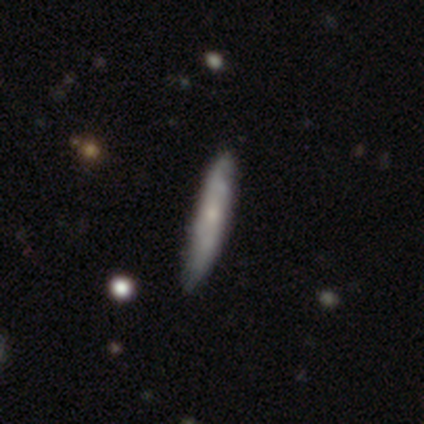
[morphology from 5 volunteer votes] This is clearly a smooth galaxy (80%). How rounded: clearly cigar-shaped (100%). Merging: clearly none (80%).